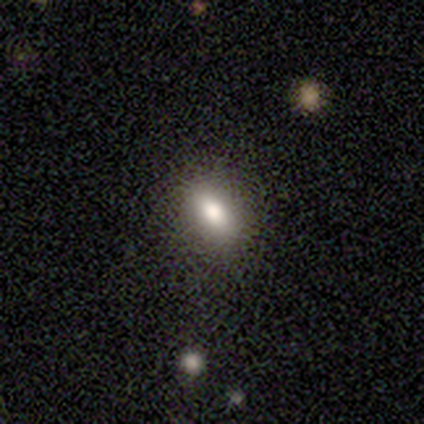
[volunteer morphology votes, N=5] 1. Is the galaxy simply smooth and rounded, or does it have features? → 80% smooth, 20% star or artifact, 0% featured or disk.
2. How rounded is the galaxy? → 75% in between, 25% round, 0% cigar-shaped.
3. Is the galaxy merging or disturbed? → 100% none, 0% minor disturbance, 0% major disturbance, 0% merger.